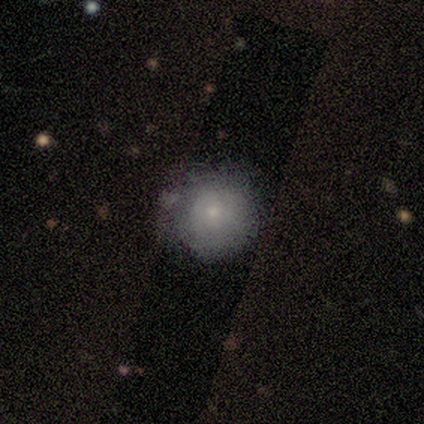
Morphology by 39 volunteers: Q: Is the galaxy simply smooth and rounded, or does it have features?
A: smooth — 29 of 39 (74%).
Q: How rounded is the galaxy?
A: round — 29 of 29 (100%).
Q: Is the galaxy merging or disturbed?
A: none — 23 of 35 (66%).